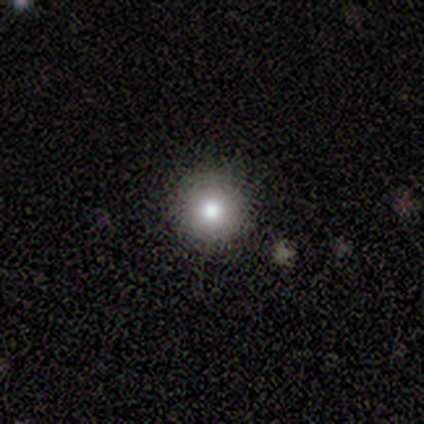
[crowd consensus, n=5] This appears to be a smooth galaxy with no disk features (60%) that is round (100%). Merging: none (75%).